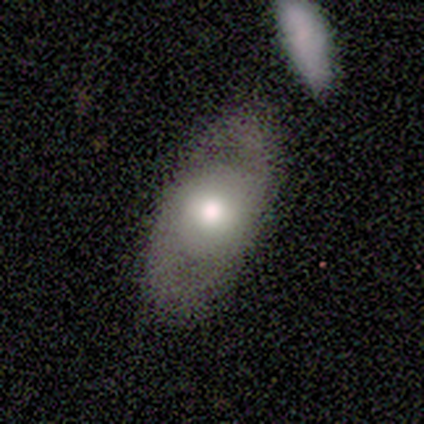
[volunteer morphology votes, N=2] smooth-or-featured: smooth: 50% (tied) | featured or disk: 50% (tied) | star or artifact: 0%
  how-rounded: in between: 100% | round: 0% | cigar-shaped: 0%
  merging: none: 50% (tied) | major disturbance: 50% (tied) | minor disturbance: 0% | merger: 0%